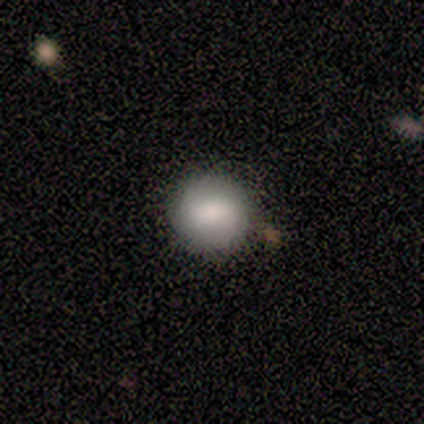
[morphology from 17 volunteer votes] Smooth or featured? 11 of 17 (65%) said smooth. How rounded? 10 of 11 (91%) said round. Merging? 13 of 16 (81%) said none.